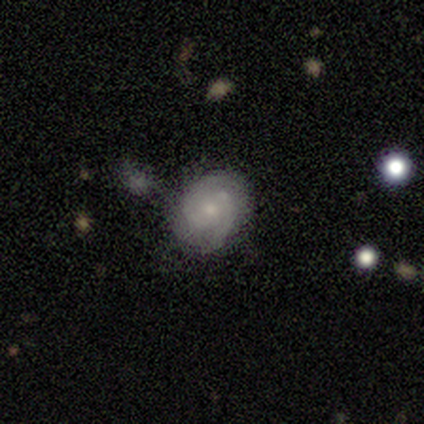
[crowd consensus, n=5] smooth_or_featured: featured or disk (p=1.00)
disk_edge_on: no (p=1.00)
bar: weak (p=0.80) [alt: no p=0.20]
has_spiral_arms: yes (p=1.00)
spiral_winding: medium (p=0.60) [alt: tight p=0.40]
spiral_arm_count: 2 (p=0.60) [alt: 3 p=0.20]
bulge_size: small (p=0.60) [alt: moderate p=0.40]
merging: none (p=0.60) [alt: minor disturbance p=0.40]